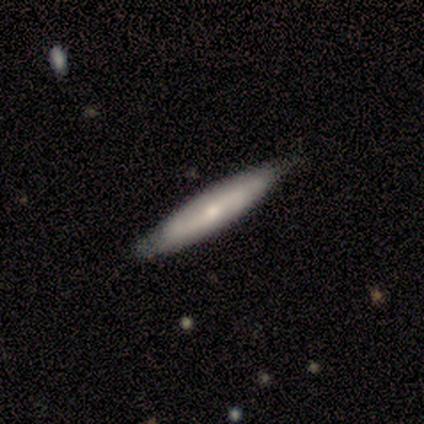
A smooth galaxy with no disk features (60%) that is cigar-shaped (100%). Merging: none (80%).